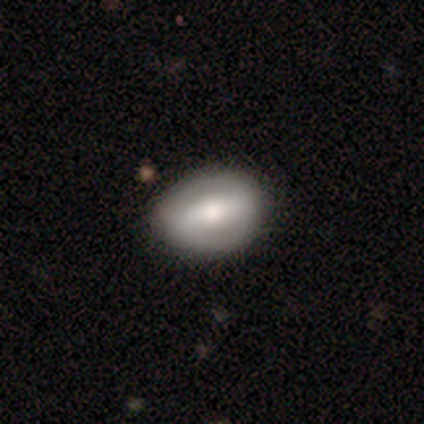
This appears to be a featured or disk galaxy (75%) with a strong bar (67%), no spiral arms (100%) and a dominant central bulge (33%, tied with large and none). Merging: none (50%, tied with minor disturbance).